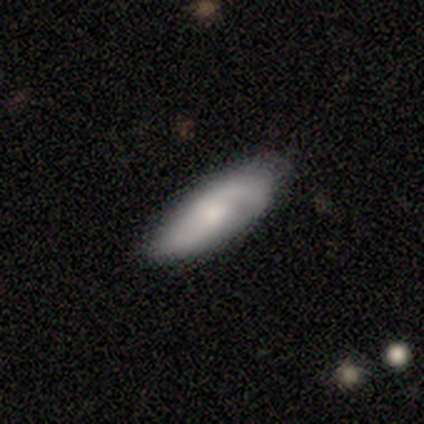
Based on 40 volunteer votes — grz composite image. It shows a smooth galaxy with no disk features (52%) that is in between round and cigar-shaped (71%). Merging: none (69%).